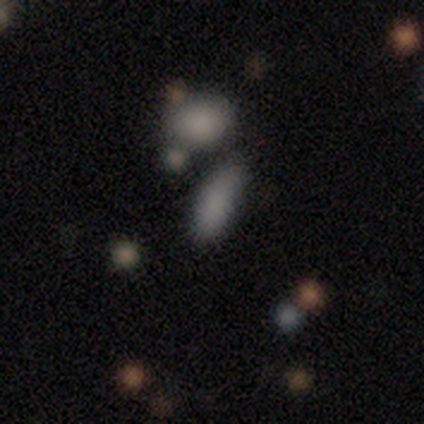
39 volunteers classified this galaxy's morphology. This is likely a smooth galaxy (79%). How rounded: likely in between (68%). Merging: possibly none (54%).